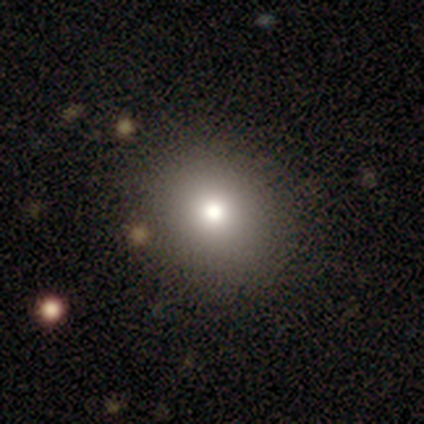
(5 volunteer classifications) This appears to be a smooth galaxy with no disk features (60%) that is round (100%). Merging: none (100%).